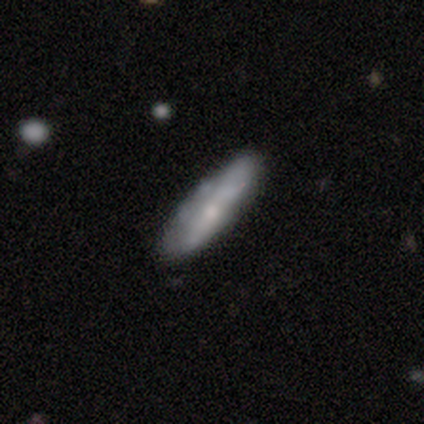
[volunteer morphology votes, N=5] Smooth or featured?
  - featured or disk: 60% *
  - smooth: 40%
  - star or artifact: 0%
Edge-on disk?
  - yes: 67% *
  - no: 33%
Edge-on bulge?
  - none: 50% * (tied)
  - rounded: 50% * (tied)
  - boxy: 0%
Merging?
  - none: 60% *
  - minor disturbance: 40%
  - major disturbance: 0%
  - merger: 0%